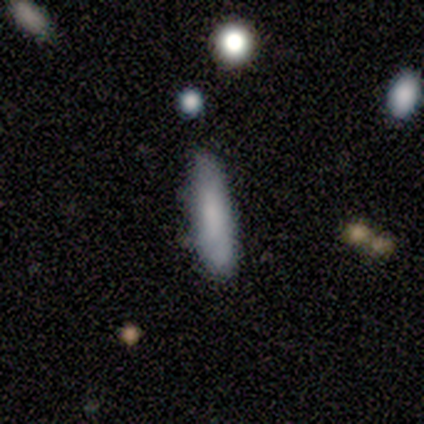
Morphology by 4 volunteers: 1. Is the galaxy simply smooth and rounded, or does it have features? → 75% smooth, 25% featured or disk, 0% star or artifact.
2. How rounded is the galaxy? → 67% cigar-shaped, 33% in between, 0% round.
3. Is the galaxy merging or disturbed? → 50% none (tied), 50% minor disturbance (tied), 0% major disturbance, 0% merger.